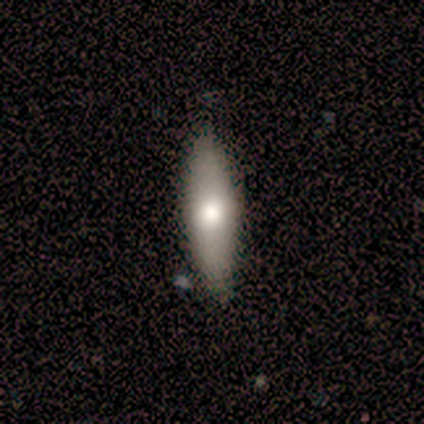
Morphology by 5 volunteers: Smooth or featured?
  - smooth: 80% *
  - featured or disk: 20%
  - star or artifact: 0%
How rounded?
  - in between: 50% * (tied)
  - cigar-shaped: 50% * (tied)
  - round: 0%
Merging?
  - none: 100% *
  - minor disturbance: 0%
  - major disturbance: 0%
  - merger: 0%